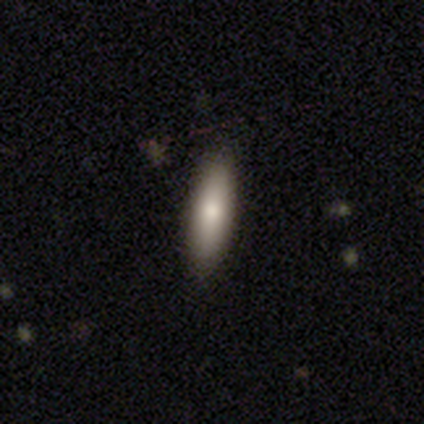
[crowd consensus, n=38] smooth-or-featured: smooth: 71% | featured or disk: 18% | star or artifact: 11%
  how-rounded: cigar-shaped: 74% | in between: 26% | round: 0%
  merging: none: 82% | minor disturbance: 9% | major disturbance: 6% | merger: 3%